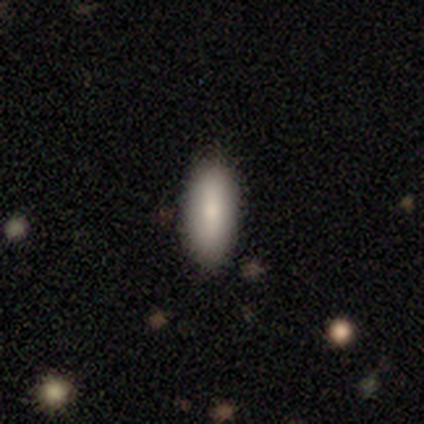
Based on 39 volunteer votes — Smooth or featured? smooth (87%)
How rounded? in between (62%)
Merging? none (94%)